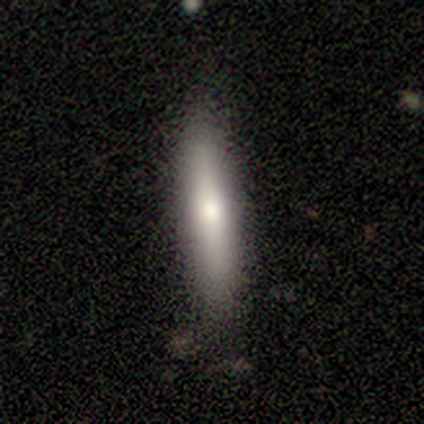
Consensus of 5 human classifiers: A smooth galaxy with no disk features (100%) that is cigar-shaped (80%). Merging: none (80%).